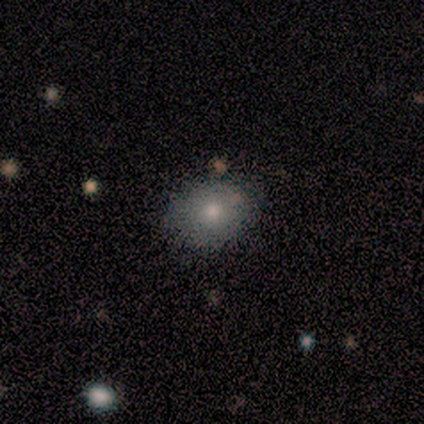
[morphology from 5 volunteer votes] smooth_or_featured: smooth (p=0.60) [alt: star or artifact p=0.40]
how_rounded: in between (p=0.67) [alt: round p=0.33]
merging: none (p=1.00)